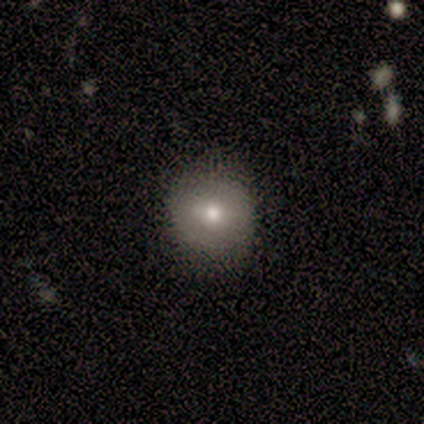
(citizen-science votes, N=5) This appears to be a smooth galaxy with no disk features (100%) that is round (100%). Merging: none (80%).